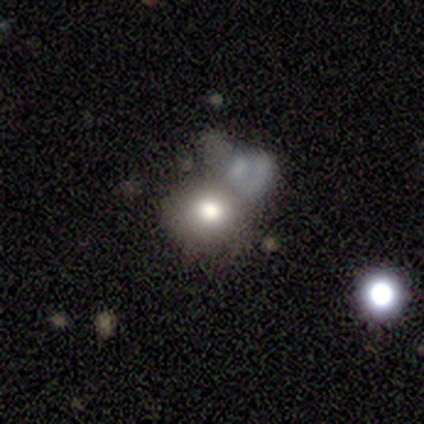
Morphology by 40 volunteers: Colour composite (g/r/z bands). It shows a smooth galaxy with no disk features (75%) that is round (70%). Merging: merger (38%).